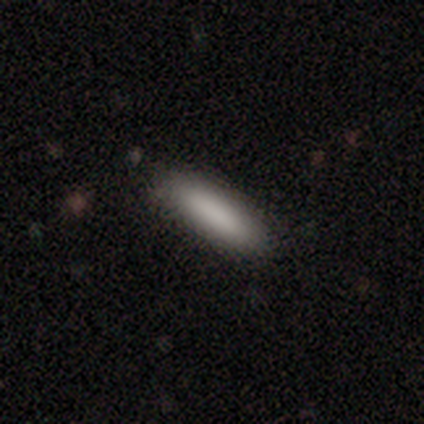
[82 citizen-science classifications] smooth-or-featured: smooth: 94% | star or artifact: 4% | featured or disk: 2%
  how-rounded: cigar-shaped: 75% | in between: 25% | round: 0%
  merging: none: 46% | minor disturbance: 5% | merger: 1% | major disturbance: 0%